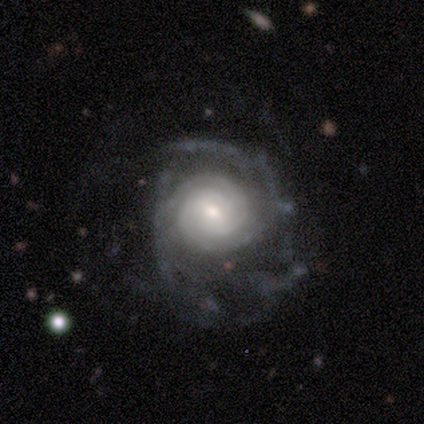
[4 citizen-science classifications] smooth-or-featured: featured or disk: 100% | smooth: 0% | star or artifact: 0%
  disk-edge-on: no: 100% | yes: 0%
    bar: no: 75% | weak: 25% | strong: 0%
    has-spiral-arms: yes: 100% | no: 0%
      spiral-winding: tight: 50% | medium: 25% | loose: 25%
      spiral-arm-count: can't tell: 100% | 1: 0% | 2: 0% | 3: 0% | 4: 0% | more than 4: 0%
    bulge-size: moderate: 75% | large: 25% | dominant: 0% | small: 0% | none: 0%
  merging: major disturbance: 50% | none: 25% | minor disturbance: 25% | merger: 0%